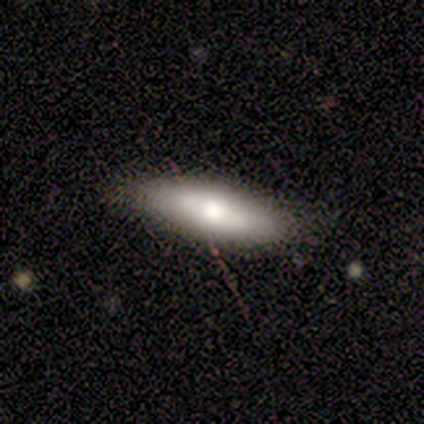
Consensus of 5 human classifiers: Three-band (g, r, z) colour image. It shows a featured or disk galaxy (60%) viewed edge-on (100%) with a rounded central bulge (100%). Merging: none (100%).